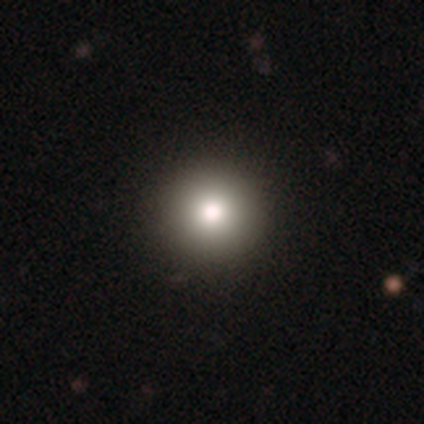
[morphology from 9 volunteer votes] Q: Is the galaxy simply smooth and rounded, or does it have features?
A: smooth — 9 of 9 (100%).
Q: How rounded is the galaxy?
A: round — 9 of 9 (100%).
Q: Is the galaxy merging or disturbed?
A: none — 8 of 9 (89%).